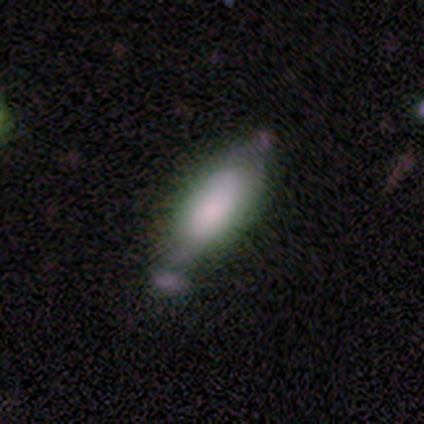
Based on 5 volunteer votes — Smooth or featured?
  - smooth: 100% *
  - featured or disk: 0%
  - star or artifact: 0%
How rounded?
  - in between: 100% *
  - round: 0%
  - cigar-shaped: 0%
Merging?
  - minor disturbance: 60% *
  - none: 40%
  - major disturbance: 0%
  - merger: 0%